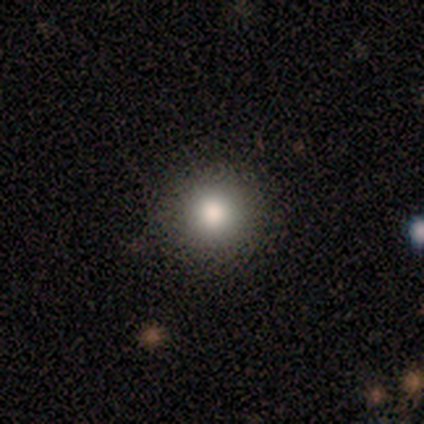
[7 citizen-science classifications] Volunteers were most divided on "merging": none: 67%, minor disturbance: 17%, major disturbance: 17%, merger: 0%. More confident: how rounded — round (100%); smooth or featured — smooth (86%).